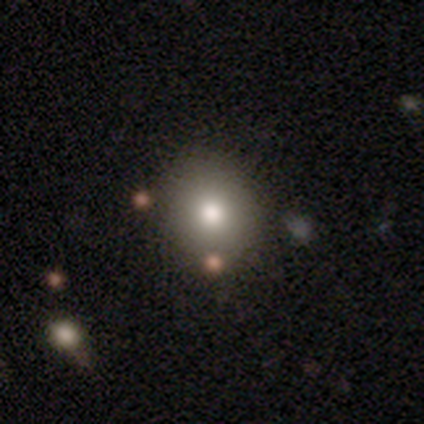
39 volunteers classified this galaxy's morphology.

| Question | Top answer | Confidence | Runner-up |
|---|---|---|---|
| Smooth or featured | smooth | 74% | star or artifact (18%) |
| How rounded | round | 86% | in between (14%) |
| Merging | none | 94% | minor disturbance (3%) |